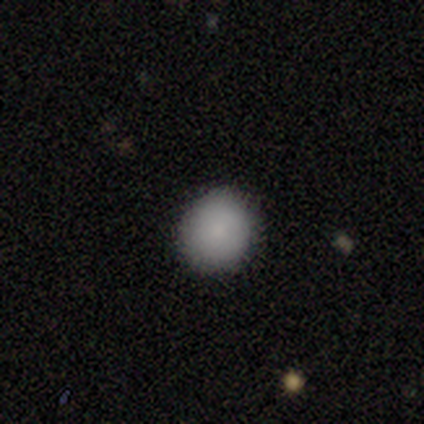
Q: Smooth or featured?
A: smooth (80%); runner-up: star or artifact (20%)
Q: How rounded?
A: round (75%); runner-up: in between (25%)
Q: Merging?
A: none (50%); tied with: minor disturbance (50%)